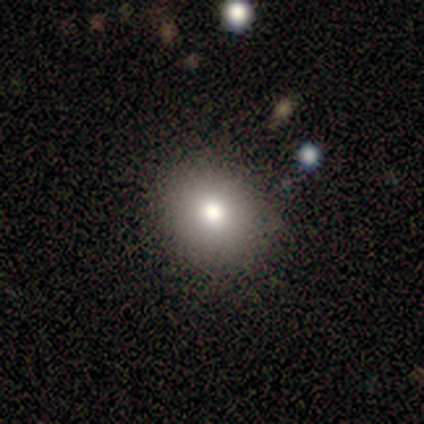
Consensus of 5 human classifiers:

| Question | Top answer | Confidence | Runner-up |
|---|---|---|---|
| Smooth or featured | smooth | 60% | featured or disk (40%) |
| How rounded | round | 67% | in between (33%) |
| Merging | none | 80% | minor disturbance (20%) |